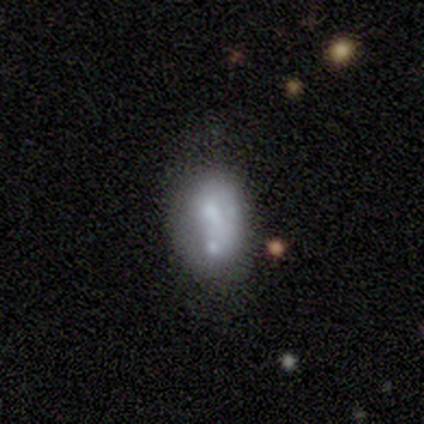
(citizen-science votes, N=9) smooth 78%, featured or disk 22%, star or artifact 0%. Down the decision tree: how rounded — in between (86%); merging — merger (44%).